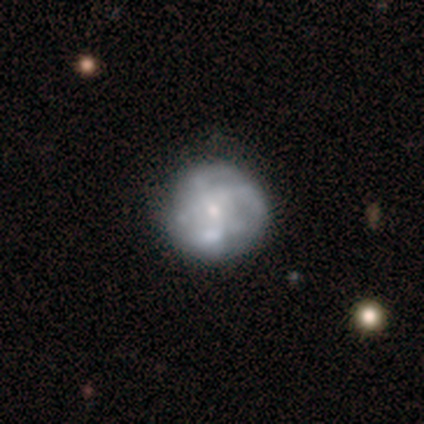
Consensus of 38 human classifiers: Smooth or featured: featured or disk — 68% (smooth — 21%)
Edge-on disk: no — 100%
Bar: no — 81% (weak — 15%)
Spiral arms: yes — 62% (no — 38%)
Spiral winding: tight — 44% (medium — 38%)
Spiral arm count: can't tell — 56% (4 — 25%)
Bulge size: small — 85% (moderate — 12%)
Merging: none — 79% (merger — 9%)